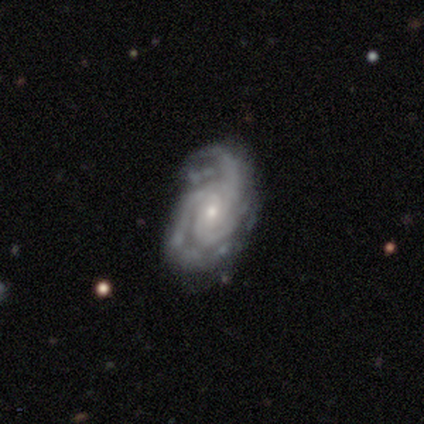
Q: Smooth or featured?
A: featured or disk (87%); runner-up: smooth (11%)
Q: Edge-on disk?
A: no (100%)
Q: Bar?
A: no (68%); runner-up: weak (28%)
Q: Spiral arms?
A: yes (98%); runner-up: no (2%)
Q: Spiral winding?
A: tight (51%); runner-up: medium (33%)
Q: Spiral arm count?
A: 3 (72%); runner-up: 2 (13%)
Q: Bulge size?
A: small (68%); runner-up: moderate (30%)
Q: Merging?
A: none (53%); runner-up: minor disturbance (27%)